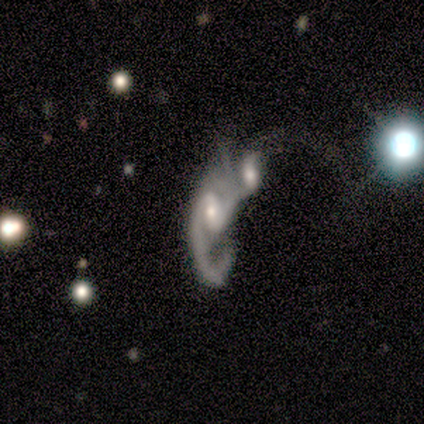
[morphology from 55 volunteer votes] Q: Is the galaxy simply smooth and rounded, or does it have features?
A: featured or disk — 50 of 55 (91%).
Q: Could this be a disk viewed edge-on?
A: no — 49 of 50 (98%).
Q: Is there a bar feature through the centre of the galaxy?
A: weak — 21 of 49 (43%).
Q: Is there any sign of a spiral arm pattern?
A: yes — 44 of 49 (90%).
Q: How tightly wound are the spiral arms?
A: loose — 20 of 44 (45%).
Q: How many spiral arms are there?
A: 2 — 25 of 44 (57%).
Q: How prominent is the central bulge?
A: moderate — 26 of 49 (53%).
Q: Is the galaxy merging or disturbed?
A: merger — 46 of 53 (87%).